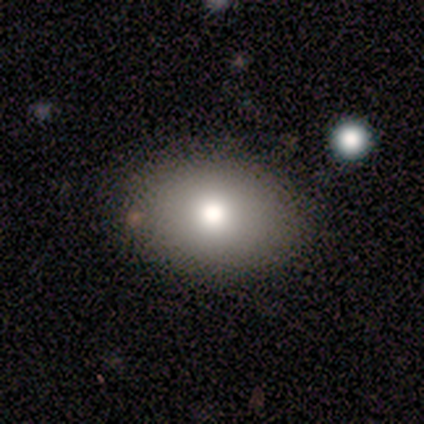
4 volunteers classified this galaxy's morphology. Smooth or featured? 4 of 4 (100%) said smooth. How rounded? 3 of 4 (75%) said in between. Merging? 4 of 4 (100%) said none.